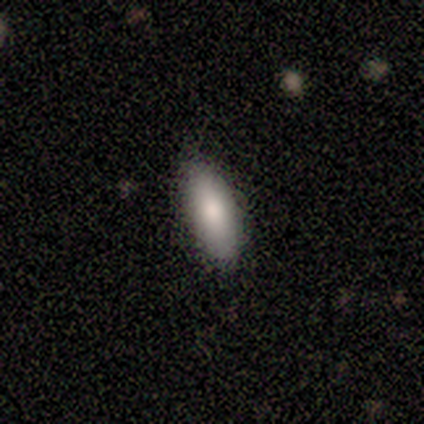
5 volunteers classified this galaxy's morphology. This appears to be a smooth galaxy with no disk features (100%) that is in between round and cigar-shaped (100%). Merging: none (100%).